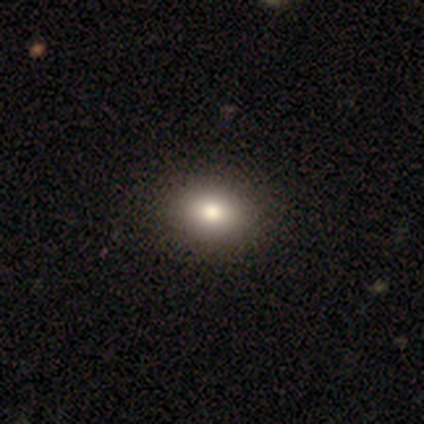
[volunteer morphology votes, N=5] Overall: smooth (60%; featured or disk 20%). How rounded: in between (67%; round 33%). Merging: none (100%).